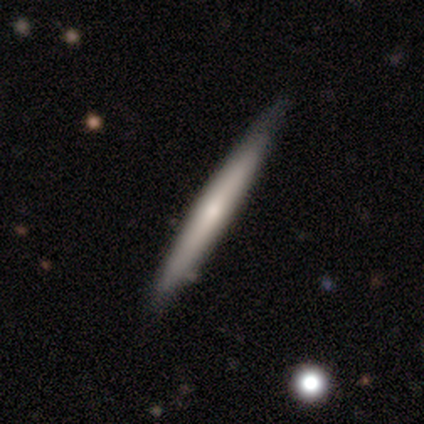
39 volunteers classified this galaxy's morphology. Volunteers were most divided on "smooth or featured": featured or disk: 54%, smooth: 44%, star or artifact: 3%. More confident: edge-on disk — yes (90%); edge-on bulge — none (58%); merging — none (58%).